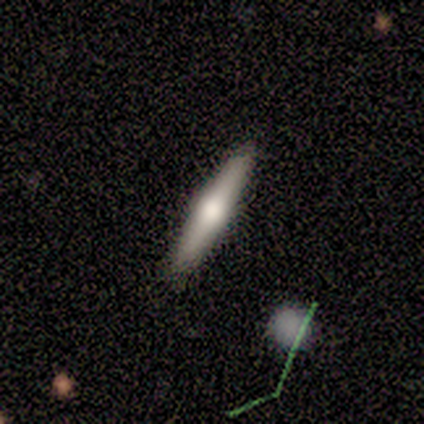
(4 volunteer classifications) smooth_or_featured: smooth (p=0.75) [alt: featured or disk p=0.25]
how_rounded: cigar-shaped (p=1.00)
merging: none (p=1.00)